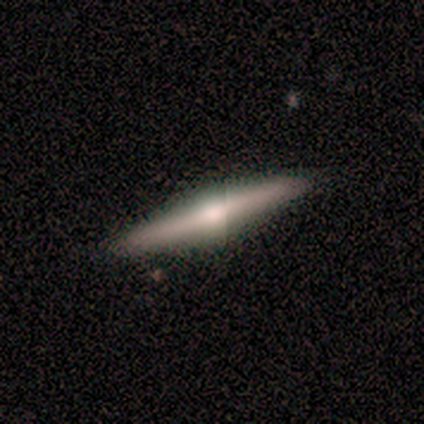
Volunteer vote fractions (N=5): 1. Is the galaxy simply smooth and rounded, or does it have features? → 80% featured or disk, 20% smooth, 0% star or artifact.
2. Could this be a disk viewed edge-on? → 100% yes, 0% no.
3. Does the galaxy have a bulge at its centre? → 100% rounded, 0% boxy, 0% none.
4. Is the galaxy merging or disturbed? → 100% none, 0% minor disturbance, 0% major disturbance, 0% merger.